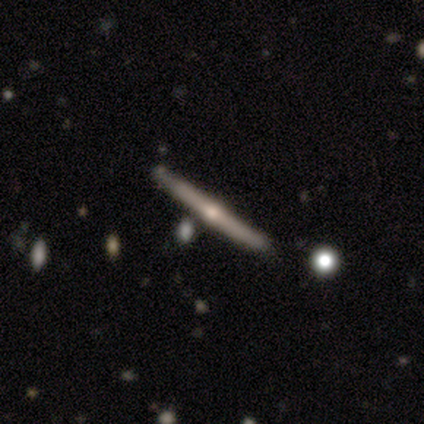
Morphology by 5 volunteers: Smooth or featured? featured or disk (100%)
Edge-on disk? yes (100%)
Edge-on bulge? rounded (100%)
Merging? none (100%)